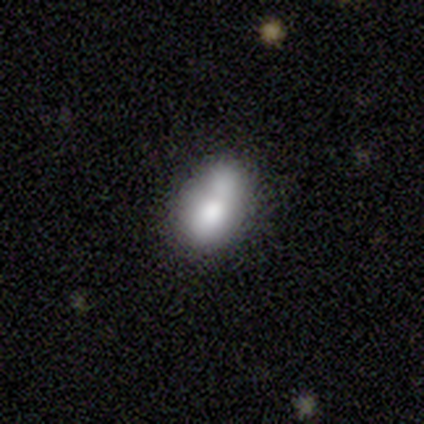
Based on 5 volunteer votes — A smooth galaxy with no disk features (80%) that is in between round and cigar-shaped (100%). Merging: merger (40%).